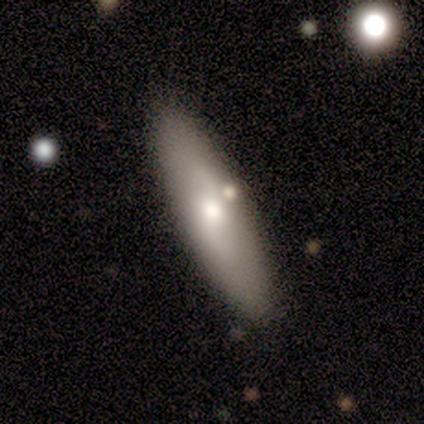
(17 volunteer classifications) Overall: smooth (59%; featured or disk 41%). How rounded: in between (70%; cigar-shaped 30%). Merging: none (76%).